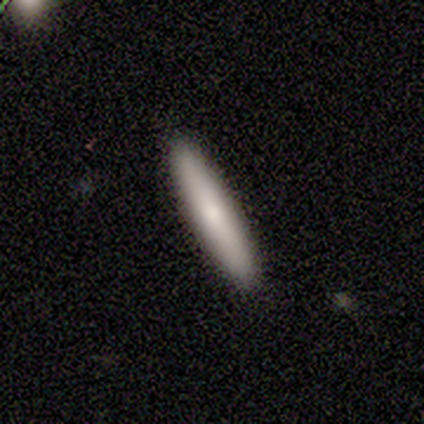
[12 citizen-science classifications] smooth-or-featured: smooth: 83% | featured or disk: 17% | star or artifact: 0%
  how-rounded: cigar-shaped: 100% | round: 0% | in between: 0%
  merging: none: 92% | minor disturbance: 8% | major disturbance: 0% | merger: 0%